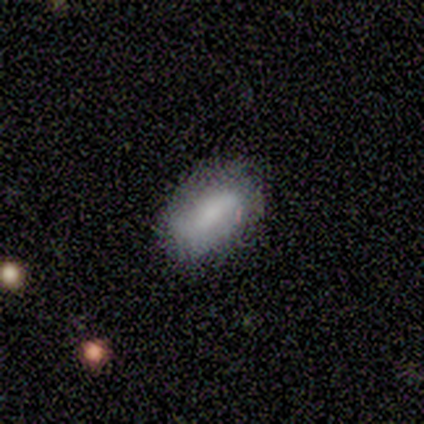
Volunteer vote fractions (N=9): Volunteers were most divided on "smooth or featured": smooth: 67%, featured or disk: 33%, star or artifact: 0%. More confident: how rounded — in between (83%); merging — none (67%).